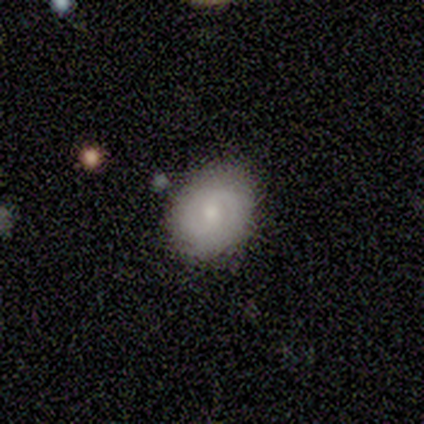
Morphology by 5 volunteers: Q: Smooth or featured?
A: smooth (80%); runner-up: featured or disk (20%)
Q: How rounded?
A: round (50%); tied with: in between (50%)
Q: Merging?
A: none (80%); runner-up: minor disturbance (20%)